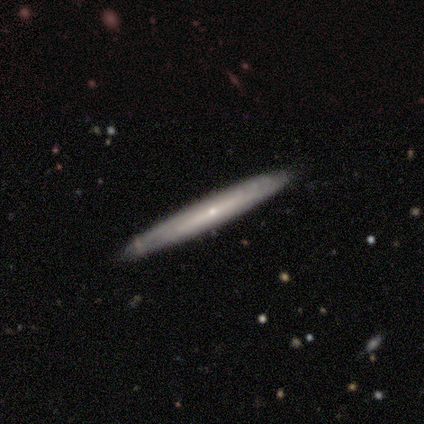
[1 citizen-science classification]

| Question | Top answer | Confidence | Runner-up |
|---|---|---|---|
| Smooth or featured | featured or disk | 100% | — |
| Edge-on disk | yes | 100% | — |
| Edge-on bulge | rounded | 100% | — |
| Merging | none | 100% | — |